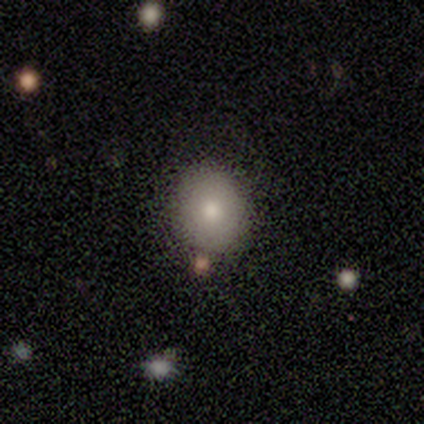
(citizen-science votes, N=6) A smooth galaxy with no disk features (67%) that is round (100%). Merging: none (100%).